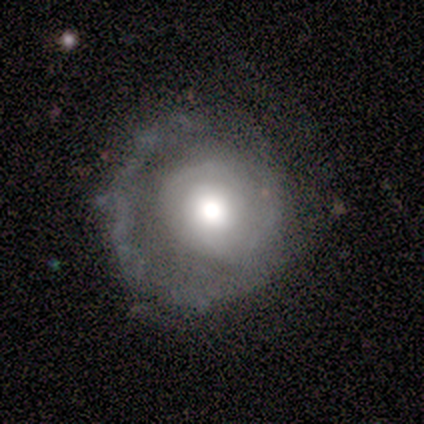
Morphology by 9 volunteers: smooth_or_featured: featured or disk (p=0.78) [alt: smooth p=0.11]
disk_edge_on: no (p=1.00)
bar: no (p=1.00)
has_spiral_arms: no (p=0.57) [alt: yes p=0.43]
bulge_size: moderate (p=0.57) [alt: large p=0.43]
merging: none (p=0.75) [alt: minor disturbance p=0.12]